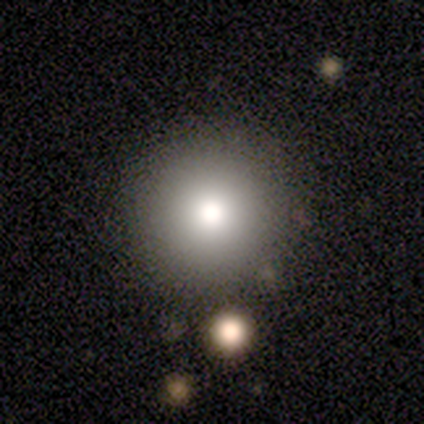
This appears to be a featured or disk galaxy (100%) with no bar (100%), no spiral arms (100%) and a moderate central bulge (100%). Merging: none (100%).